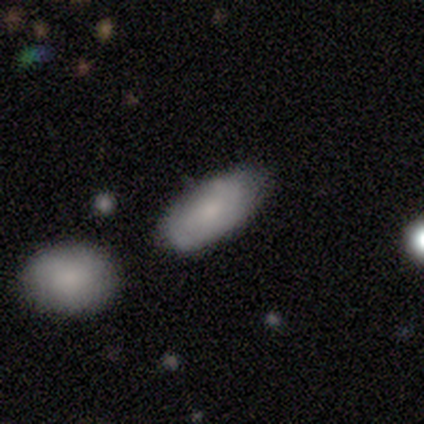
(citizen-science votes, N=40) Smooth or featured? 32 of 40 (80%) said smooth. How rounded? 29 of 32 (91%) said in between. Merging? 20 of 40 (50%) said none.